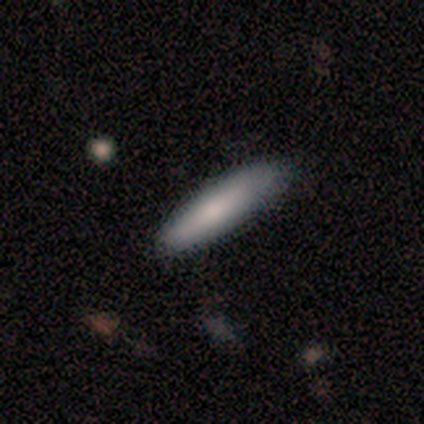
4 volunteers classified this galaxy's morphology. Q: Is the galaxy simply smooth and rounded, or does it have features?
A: smooth — 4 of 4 (100%).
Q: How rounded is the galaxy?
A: cigar-shaped — 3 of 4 (75%).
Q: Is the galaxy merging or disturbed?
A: none — 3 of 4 (75%).